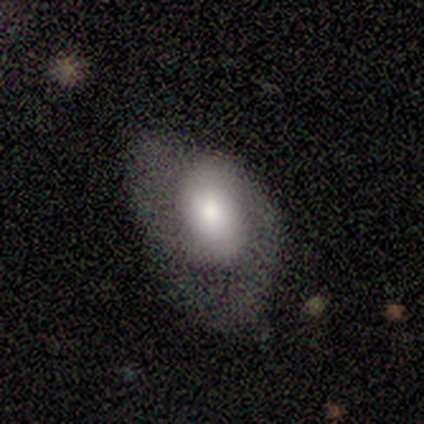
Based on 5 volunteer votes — This is clearly a featured or disk galaxy (80%). It is clearly not viewed edge-on (100%). Bar: clearly no (100%). Spiral arm pattern: likely yes (75%). Spiral arm count: likely 2 (67%). Spiral winding: likely medium (67%). Central bulge: possibly large (50%). Merging: clearly major disturbance (80%).